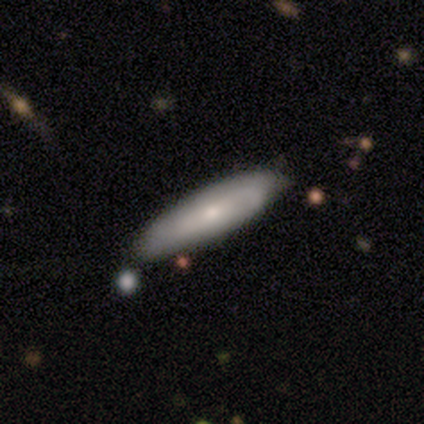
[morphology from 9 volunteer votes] Smooth or featured? smooth (56%)
How rounded? cigar-shaped (80%)
Merging? none (89%)